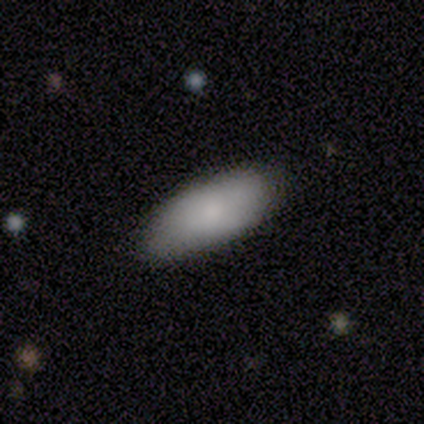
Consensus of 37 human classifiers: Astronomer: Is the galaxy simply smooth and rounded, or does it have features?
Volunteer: smooth — 84%.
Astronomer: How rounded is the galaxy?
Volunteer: in between — 81%.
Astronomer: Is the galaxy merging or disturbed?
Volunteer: none — 77%.